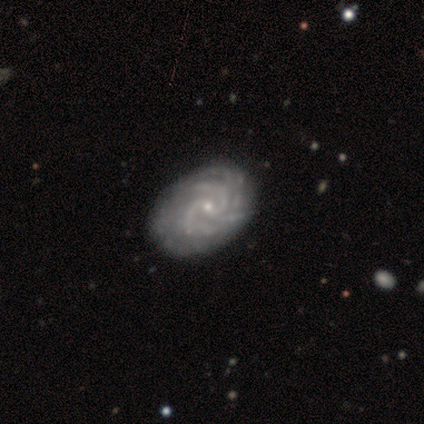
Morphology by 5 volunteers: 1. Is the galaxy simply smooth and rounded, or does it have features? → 100% featured or disk, 0% smooth, 0% star or artifact.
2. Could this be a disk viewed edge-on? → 100% no, 0% yes.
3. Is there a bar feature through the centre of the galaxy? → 60% no, 20% strong, 20% weak.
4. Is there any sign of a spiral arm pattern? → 100% yes, 0% no.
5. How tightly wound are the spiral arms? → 60% medium, 40% tight, 0% loose.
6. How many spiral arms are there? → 60% can't tell, 20% 2, 20% 4, 0% 1, 0% 3, 0% more than 4.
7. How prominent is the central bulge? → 80% small, 20% moderate, 0% dominant, 0% large, 0% none.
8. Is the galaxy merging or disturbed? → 60% none, 20% minor disturbance, 20% major disturbance, 0% merger.